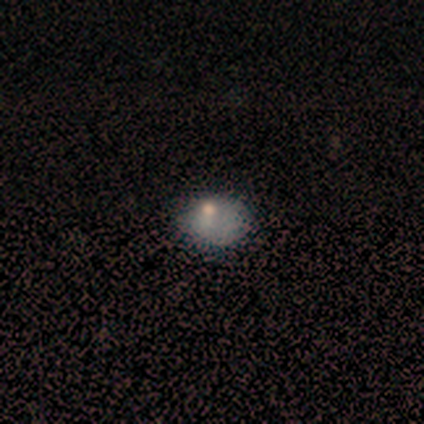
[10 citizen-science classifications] Volunteers were most divided on "smooth or featured": smooth: 50%, featured or disk: 40%, star or artifact: 10%. More confident: how rounded — round (100%); merging — none (78%).